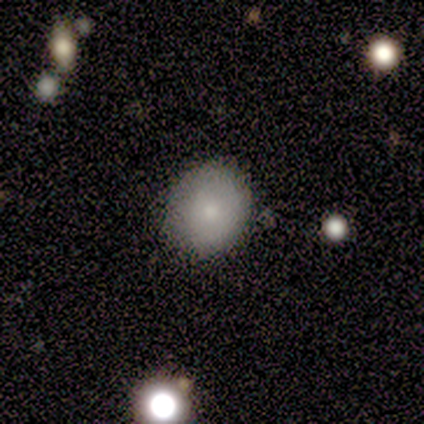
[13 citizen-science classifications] This appears to be a smooth galaxy with no disk features (85%) that is round (73%). Merging: none (77%).